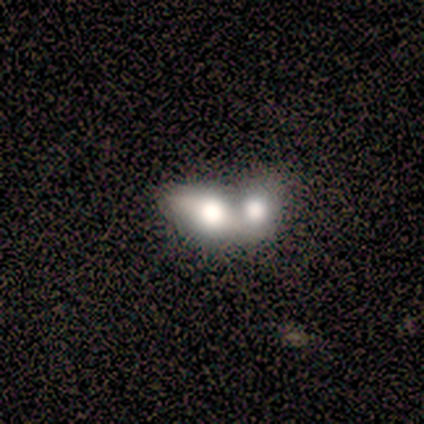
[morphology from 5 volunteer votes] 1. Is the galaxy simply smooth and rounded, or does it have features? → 100% smooth, 0% featured or disk, 0% star or artifact.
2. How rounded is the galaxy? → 80% in between, 20% round, 0% cigar-shaped.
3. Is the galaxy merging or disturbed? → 60% merger, 40% minor disturbance, 0% none, 0% major disturbance.